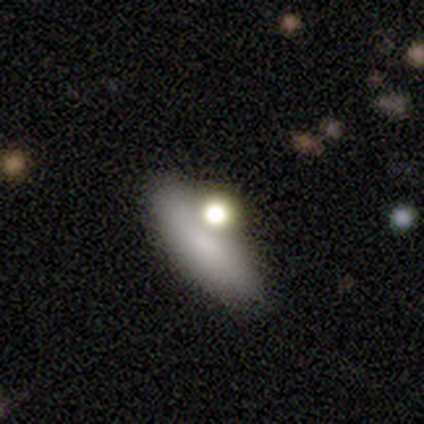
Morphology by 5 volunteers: smooth-or-featured: smooth: 100% | featured or disk: 0% | star or artifact: 0%
  how-rounded: round: 60% | in between: 20% | cigar-shaped: 20%
  merging: none: 60% | merger: 40% | minor disturbance: 0% | major disturbance: 0%